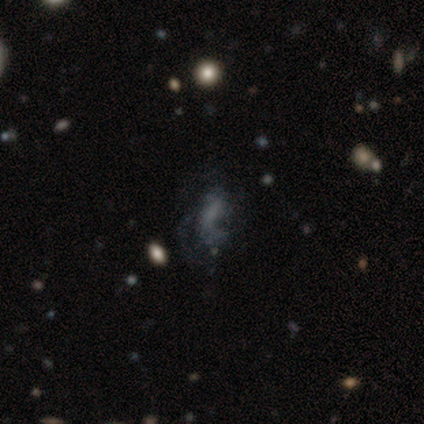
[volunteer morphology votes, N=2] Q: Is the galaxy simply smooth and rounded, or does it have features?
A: featured or disk — 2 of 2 (100%).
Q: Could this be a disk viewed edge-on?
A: no — 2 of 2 (100%).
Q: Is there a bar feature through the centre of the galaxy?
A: no — 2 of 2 (100%).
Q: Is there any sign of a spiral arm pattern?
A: no — 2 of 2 (100%).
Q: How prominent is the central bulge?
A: none — 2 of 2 (100%).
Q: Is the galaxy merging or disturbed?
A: minor disturbance — 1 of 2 (50%, tied with major disturbance).